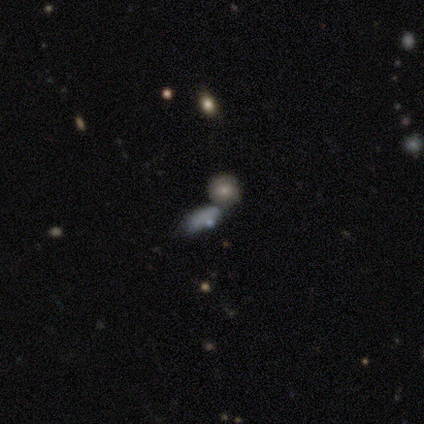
smooth-or-featured: smooth: 71% | featured or disk: 17% | star or artifact: 12%
  how-rounded: in between: 73% | round: 19% | cigar-shaped: 8%
  merging: merger: 43% | none: 37% | minor disturbance: 13% | major disturbance: 7%